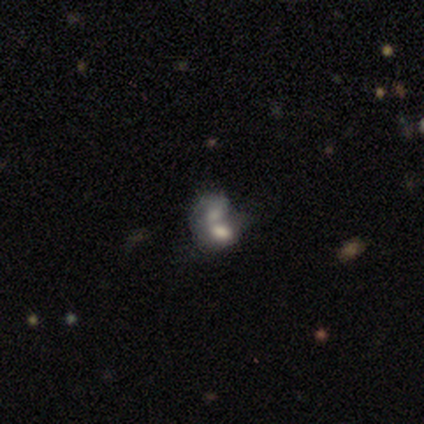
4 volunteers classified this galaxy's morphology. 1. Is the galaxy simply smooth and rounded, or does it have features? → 75% smooth, 25% featured or disk, 0% star or artifact.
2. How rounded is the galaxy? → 100% in between, 0% round, 0% cigar-shaped.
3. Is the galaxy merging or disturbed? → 100% merger, 0% none, 0% minor disturbance, 0% major disturbance.